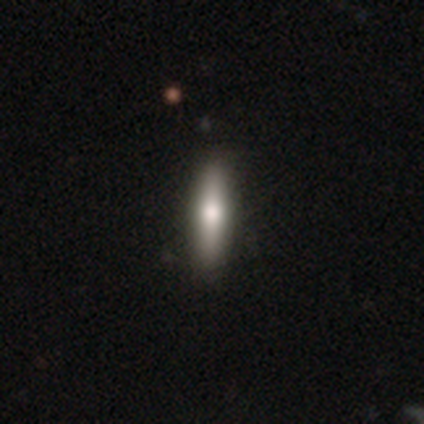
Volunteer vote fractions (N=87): A smooth galaxy with no disk features (63%) that is cigar-shaped (89%).

Vote fractions:
- Smooth or featured? smooth: 63% / featured or disk: 32% / star or artifact: 5%
- How rounded? cigar-shaped: 89% / in between: 11% / round: 0%
- Merging? none: 87% / minor disturbance: 11% / major disturbance: 1% / merger: 1%